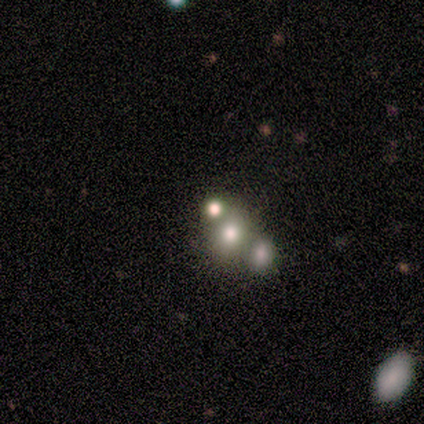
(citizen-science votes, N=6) Overall: featured or disk (50%; star or artifact 33%). Edge-on disk: no (100%). Bar: no (100%). Spiral arms: no (100%). Bulge size: moderate (67%; none 33%). Merging: merger (75%).